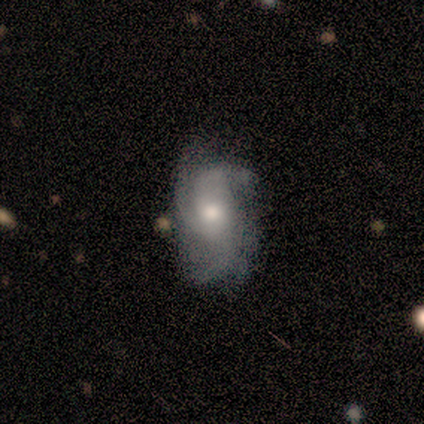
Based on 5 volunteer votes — Morphology: type=featured or disk (100%); edge-on=no (100%); bar=no (60%); spiral arms=yes (100%); winding=medium (60%); arm count=3 (40%, tied with 4); bulge=moderate (80%); merging=minor disturbance (100%).